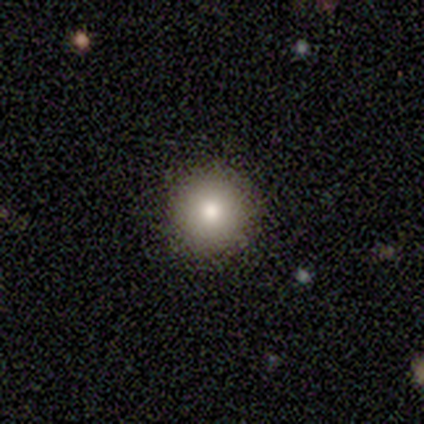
A smooth galaxy with no disk features (60%) that is round (100%). Merging: none (100%).